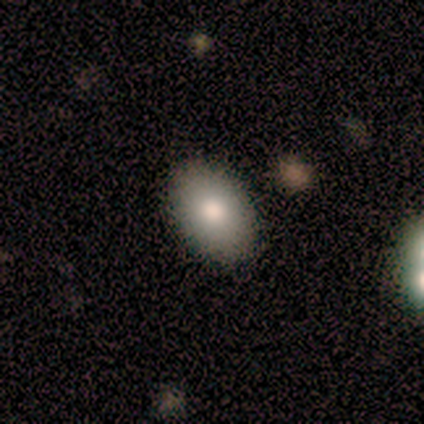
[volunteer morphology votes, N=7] Smooth or featured?
  - smooth: 71% *
  - featured or disk: 29%
  - star or artifact: 0%
How rounded?
  - in between: 80% *
  - cigar-shaped: 20%
  - round: 0%
Merging?
  - none: 86% *
  - minor disturbance: 14%
  - major disturbance: 0%
  - merger: 0%